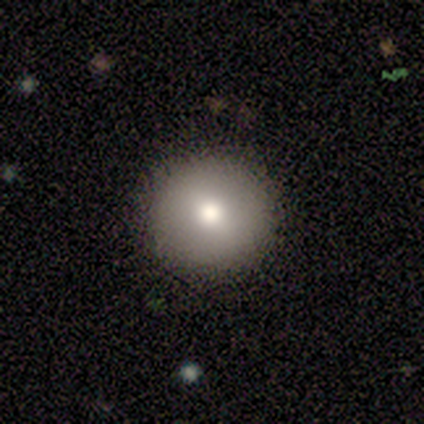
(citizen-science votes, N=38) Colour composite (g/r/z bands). It shows a smooth galaxy with no disk features (82%) that is round (100%). Merging: none (94%).